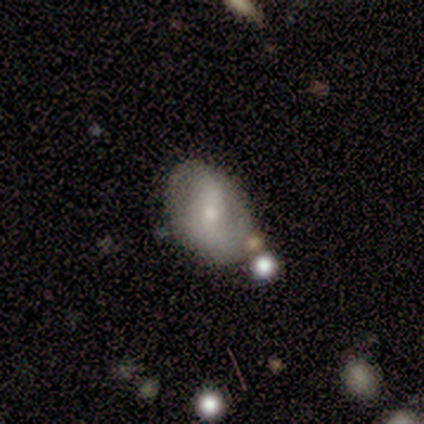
smooth 58%, featured or disk 33%, star or artifact 8%. Down the decision tree: how rounded — in between (86%); merging — none (82%).